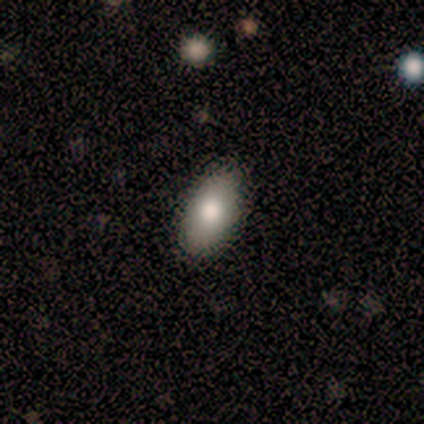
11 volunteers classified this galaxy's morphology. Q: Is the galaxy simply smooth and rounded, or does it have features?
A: smooth — 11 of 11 (100%).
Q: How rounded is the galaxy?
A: in between — 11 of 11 (100%).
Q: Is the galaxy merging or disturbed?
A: none — 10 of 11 (91%).